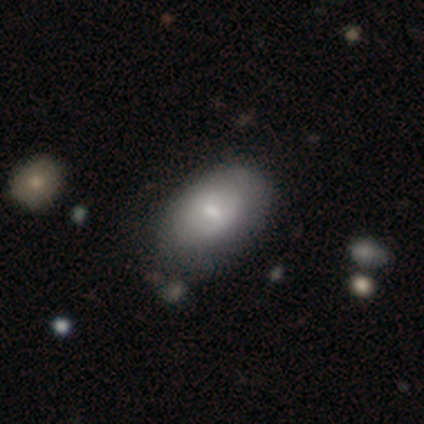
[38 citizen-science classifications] Overall: smooth (61%; featured or disk 39%). How rounded: in between (91%). Merging: none (42%; minor disturbance 18%).